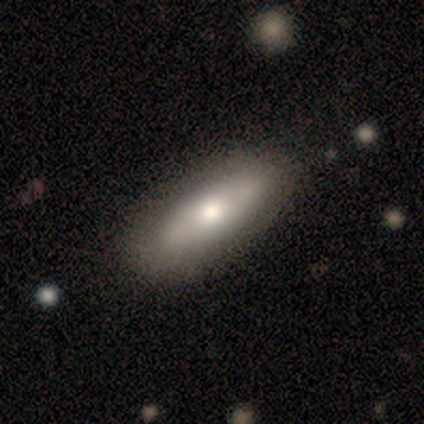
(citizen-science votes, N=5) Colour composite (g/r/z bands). It shows a featured or disk galaxy (80%) with no bar (67%), no spiral arms (100%) and a moderate central bulge (67%). Merging: none (100%).